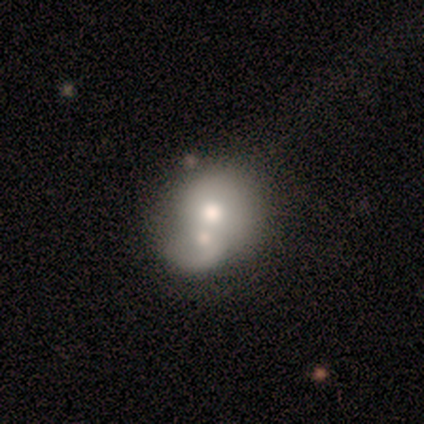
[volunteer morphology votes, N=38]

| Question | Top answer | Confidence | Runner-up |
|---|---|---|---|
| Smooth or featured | smooth | 61% | featured or disk (37%) |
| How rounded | round | 83% | in between (17%) |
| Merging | merger | 70% | none (19%) |